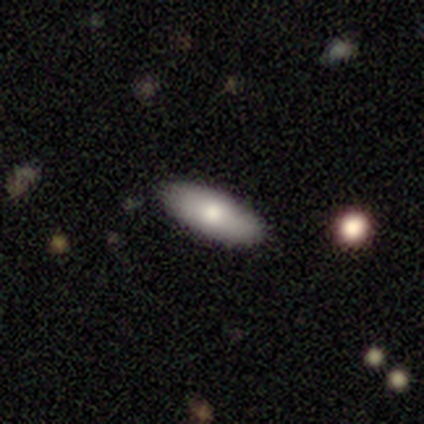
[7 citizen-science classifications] Smooth or featured?
  - smooth: 71% *
  - featured or disk: 14%
  - star or artifact: 14%
How rounded?
  - in between: 100% *
  - round: 0%
  - cigar-shaped: 0%
Merging?
  - none: 67% *
  - minor disturbance: 17%
  - merger: 17%
  - major disturbance: 0%